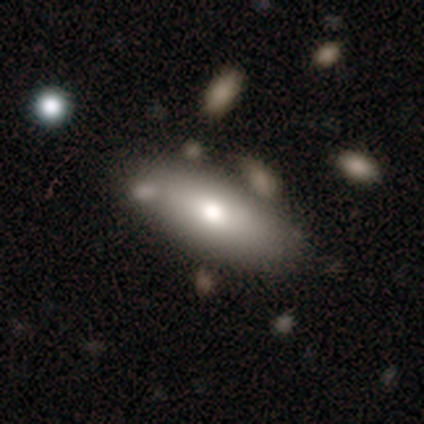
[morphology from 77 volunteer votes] Smooth or featured? smooth (69%)
How rounded? in between (85%)
Merging? none (64%)